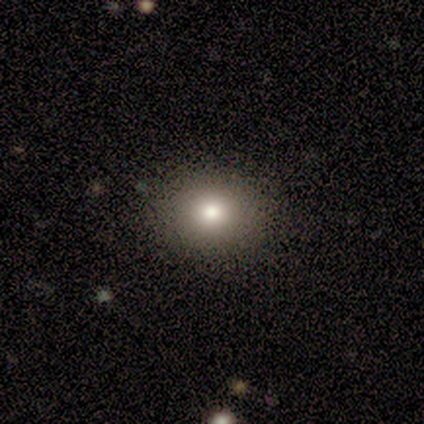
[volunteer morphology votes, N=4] smooth 75%, star or artifact 25%, featured or disk 0%. Down the decision tree: how rounded — in between (67%); merging — none (100%).